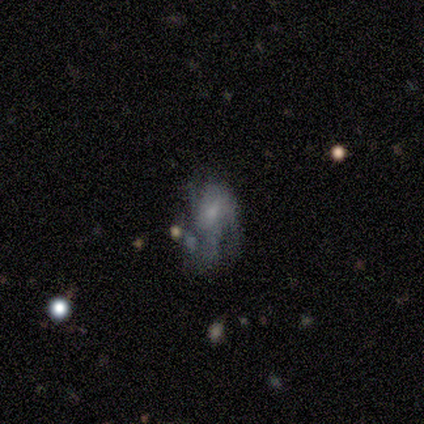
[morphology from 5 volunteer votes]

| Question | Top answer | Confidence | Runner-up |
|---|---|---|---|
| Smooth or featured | smooth | 60% | featured or disk (40%) |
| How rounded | in between | 100% | — |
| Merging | none | 60% | minor disturbance (20%) |